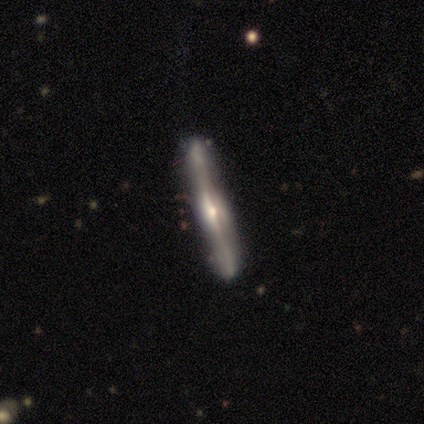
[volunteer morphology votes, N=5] A featured or disk galaxy (100%) viewed edge-on (100%) with a rounded central bulge (80%). Merging: none (100%).